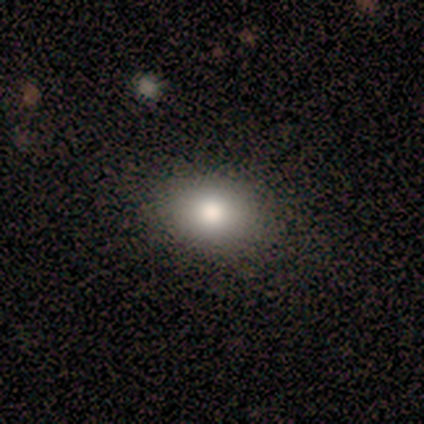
Smooth or featured: smooth — 80% (featured or disk — 20%)
How rounded: in between — 75% (round — 25%)
Merging: none — 100%